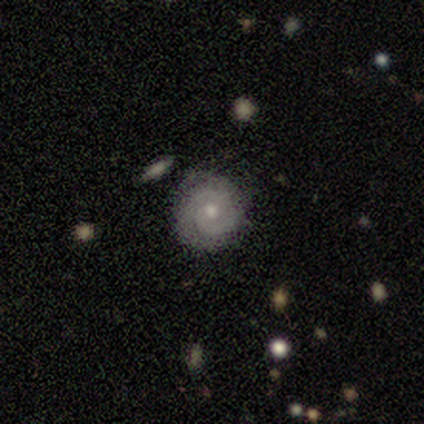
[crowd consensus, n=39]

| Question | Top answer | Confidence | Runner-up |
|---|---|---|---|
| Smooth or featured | featured or disk | 64% | smooth (21%) |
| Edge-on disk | no | 92% | yes (8%) |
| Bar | no | 74% | weak (22%) |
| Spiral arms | yes | 96% | no (4%) |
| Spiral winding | tight | 55% | medium (27%) |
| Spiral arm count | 2 | 59% | 1 (18%) |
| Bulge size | small | 57% | moderate (43%) |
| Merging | none | 88% | minor disturbance (6%) |